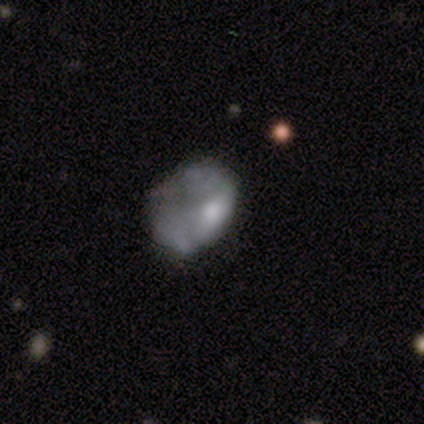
Morphology: type=smooth (75%); roundness=in between (100%); merging=major disturbance (75%).